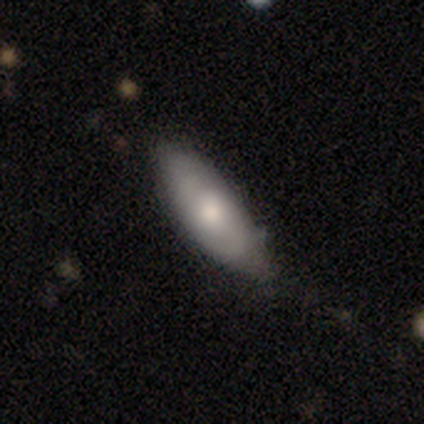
Overall: smooth (55%; featured or disk 42%). How rounded: in between (79%). Merging: none (56%; minor disturbance 32%).